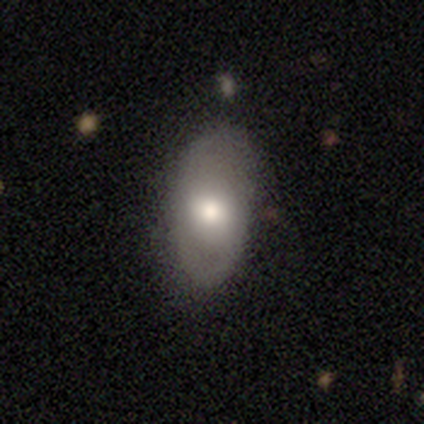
featured or disk 51%, smooth 46%, star or artifact 3%. Down the decision tree: edge-on disk — no (90%); bar — weak (44%, tied with no); spiral arms — yes (50%, tied with no); spiral arm count — 2 (78%); spiral winding — medium (67%); bulge size — moderate (61%); merging — none (82%).